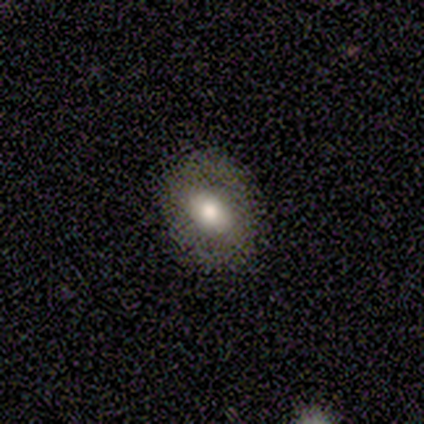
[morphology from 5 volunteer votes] This is likely a smooth galaxy (60%). How rounded: likely round (67%). Merging: likely none (75%).